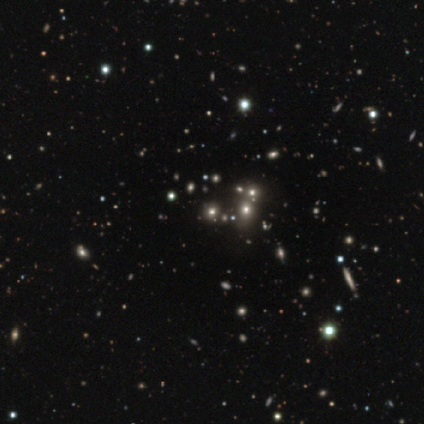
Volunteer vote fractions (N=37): A star or artifact, not a galaxy (62%).